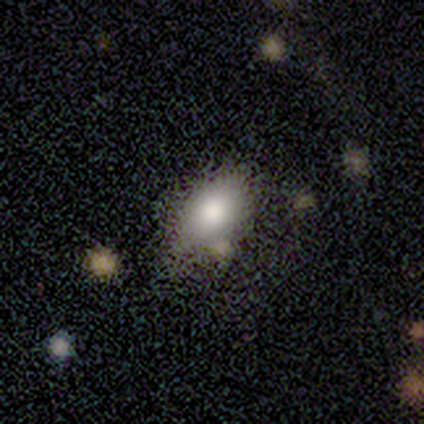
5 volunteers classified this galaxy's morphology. Volunteers were most divided on "smooth or featured": smooth: 80%, featured or disk: 20%, star or artifact: 0%. More confident: how rounded — in between (100%); merging — none (80%).